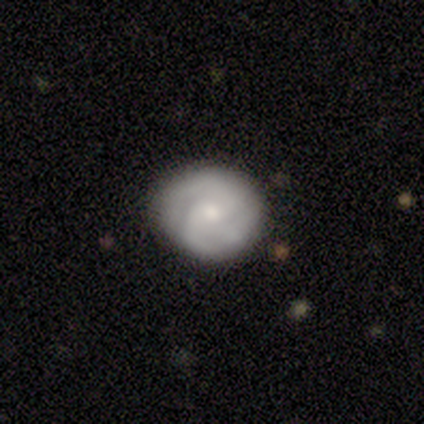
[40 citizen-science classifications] A featured or disk galaxy (65%) with no bar (80%), 2 (36%) tight (59%) spiral arms (88%) and a small central bulge (76%).

Vote fractions:
- Smooth or featured? featured or disk: 65% / smooth: 30% / star or artifact: 5%
- Edge-on disk? no: 96% / yes: 4%
- Bar? no: 80% / weak: 20% / strong: 0%
- Spiral arms? yes: 88% / no: 12%
- Spiral winding? tight: 59% / medium: 32% / loose: 9%
- Spiral arm count? 2: 36% / 3: 32% / can't tell: 27% / 1: 5% / 4: 0% / more than 4: 0%
- Bulge size? small: 76% / moderate: 24% / dominant: 0% / large: 0% / none: 0%
- Merging? none: 82% / minor disturbance: 18% / major disturbance: 0% / merger: 0%